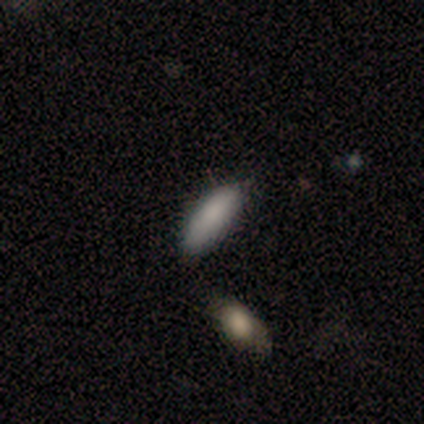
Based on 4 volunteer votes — star or artifact 50%, smooth 25%, featured or disk 25%.